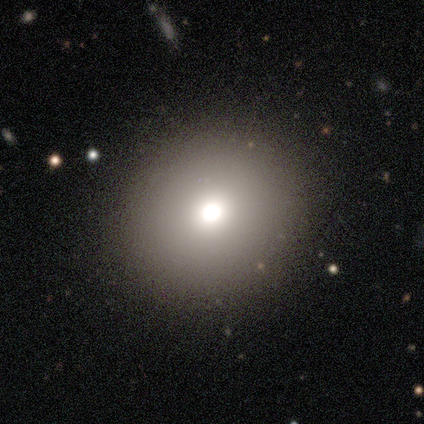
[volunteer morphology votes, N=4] Overall: smooth (75%). How rounded: round (100%). Merging: none (75%).